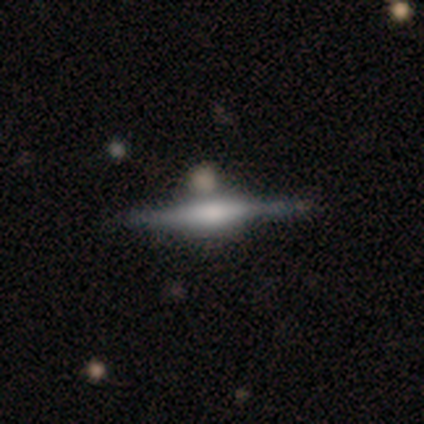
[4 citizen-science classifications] Smooth or featured? featured or disk (75%)
Edge-on disk? yes (100%)
Edge-on bulge? boxy (67%)
Merging? none (75%)